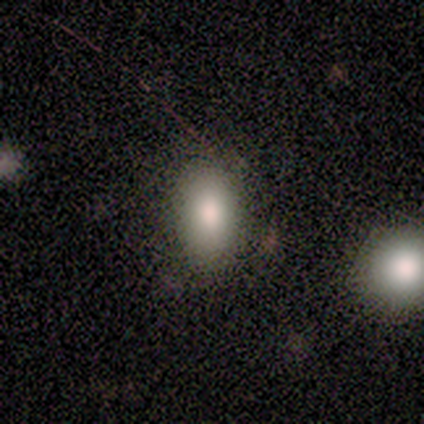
smooth_or_featured: smooth (p=1.00)
how_rounded: in between (p=1.00)
merging: none (p=1.00)